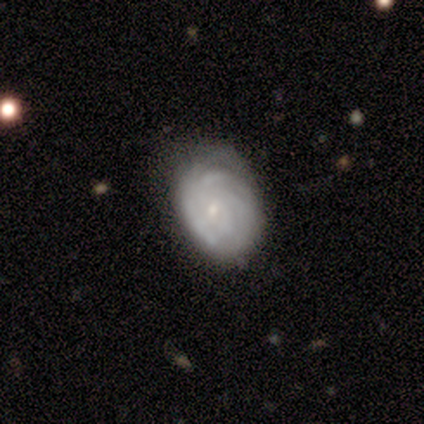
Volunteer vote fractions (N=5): This is clearly a featured or disk galaxy (80%). It is clearly not viewed edge-on (100%). Bar: clearly no (100%). Spiral arm pattern: likely yes (75%). Spiral arm count: clearly can't tell (100%). Spiral winding: likely tight (67%). Central bulge: clearly small (100%). Merging: likely none (60%).